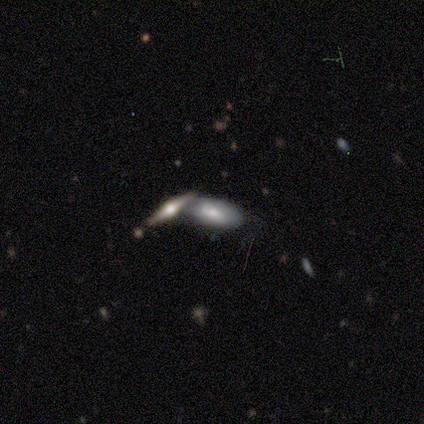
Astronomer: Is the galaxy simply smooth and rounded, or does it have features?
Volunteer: smooth — 60% (runner-up: featured or disk, 40%).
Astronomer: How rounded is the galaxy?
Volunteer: in between — 100%.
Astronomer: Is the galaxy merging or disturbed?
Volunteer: merger — 60% (runner-up: none, 40%).